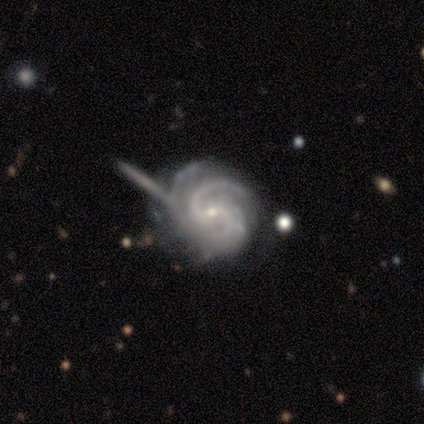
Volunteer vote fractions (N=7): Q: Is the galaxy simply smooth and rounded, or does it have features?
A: featured or disk — 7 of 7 (100%).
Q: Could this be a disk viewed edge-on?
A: no — 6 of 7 (86%).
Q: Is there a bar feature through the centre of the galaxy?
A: weak — 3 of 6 (50%, tied with no).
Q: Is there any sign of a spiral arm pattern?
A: yes — 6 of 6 (100%).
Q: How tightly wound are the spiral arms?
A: tight — 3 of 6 (50%, tied with medium).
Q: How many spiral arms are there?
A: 3 — 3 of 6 (50%).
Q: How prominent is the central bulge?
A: small — 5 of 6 (83%).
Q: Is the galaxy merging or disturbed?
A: none — 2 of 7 (29%, tied with minor disturbance and major disturbance).